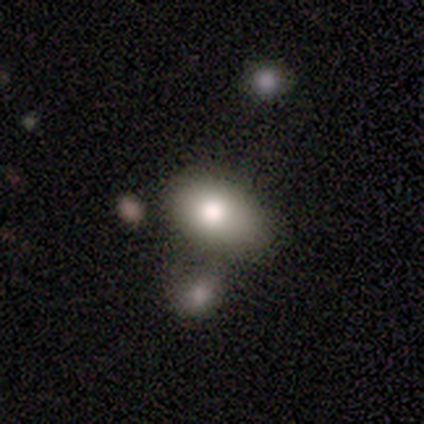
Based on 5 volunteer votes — smooth 60%, featured or disk 40%, star or artifact 0%. Down the decision tree: how rounded — in between (67%); merging — merger (60%).